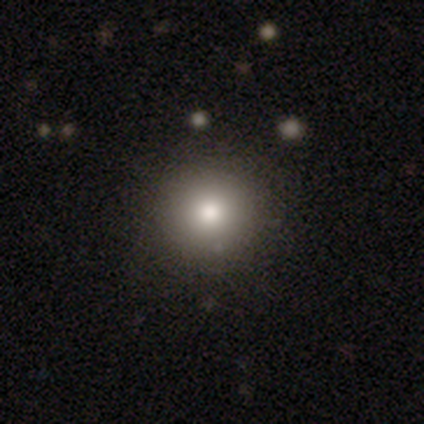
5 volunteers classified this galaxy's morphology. Smooth or featured: smooth — 60% (featured or disk — 40%)
How rounded: round — 100%
Merging: none — 60% (minor disturbance — 40%)